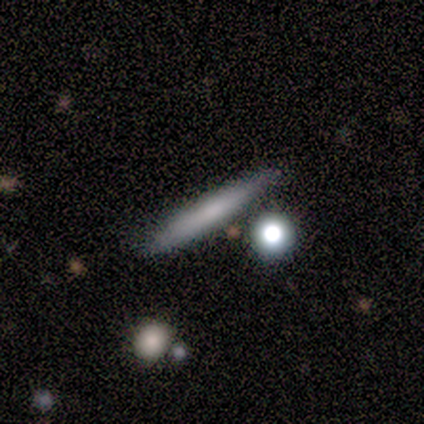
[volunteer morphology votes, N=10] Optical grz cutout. It shows a smooth galaxy with no disk features (80%) that is cigar-shaped (100%). Merging: none (100%).